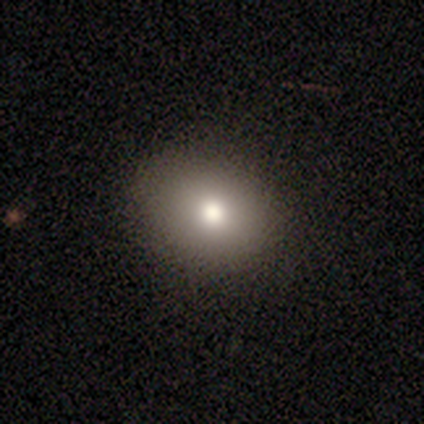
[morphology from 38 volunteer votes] Q: Smooth or featured?
A: smooth (79%); runner-up: featured or disk (18%)
Q: How rounded?
A: round (67%); runner-up: in between (33%)
Q: Merging?
A: none (59%); runner-up: major disturbance (3%)